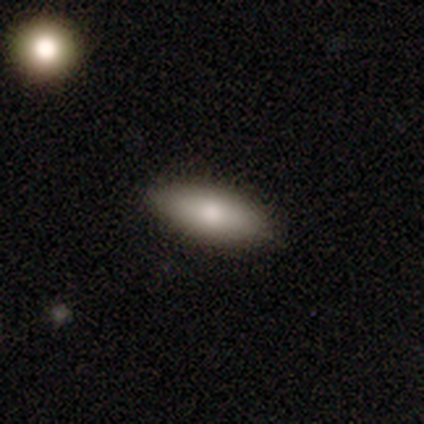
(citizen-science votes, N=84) Morphology: type=smooth (75%); roundness=in between (75%); merging=none (86%).